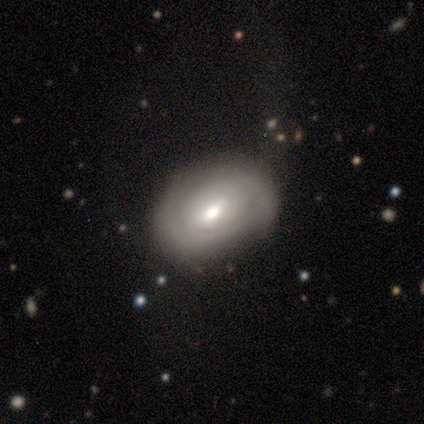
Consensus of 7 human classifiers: Morphology: type=featured or disk (57%); edge-on=no (75%); bar=weak (67%); spiral arms=yes (100%); winding=tight (67%); arm count=2 (33%, tied with more than 4 and can't tell); bulge=moderate (100%); merging=none (57%).